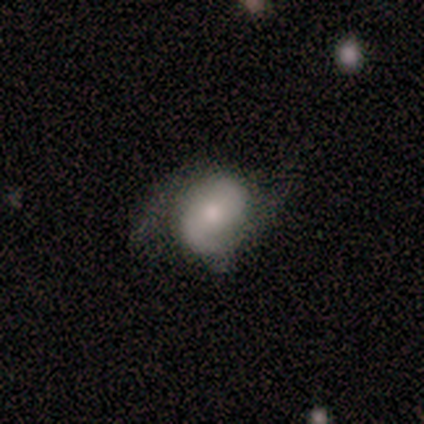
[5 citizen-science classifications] A featured or disk galaxy (60%) with no bar (100%), 2 (67%) tight (33%, tied with medium and loose) spiral arms (100%) and a small central bulge (67%).

Vote fractions:
- Smooth or featured? featured or disk: 60% / smooth: 40% / star or artifact: 0%
- Edge-on disk? no: 100% / yes: 0%
- Bar? no: 100% / strong: 0% / weak: 0%
- Spiral arms? yes: 100% / no: 0%
- Spiral winding? tight: 33% (tied) / medium: 33% (tied) / loose: 33% (tied)
- Spiral arm count? 2: 67% / 1: 33% / 3: 0% / 4: 0% / more than 4: 0% / can't tell: 0%
- Bulge size? small: 67% / large: 33% / dominant: 0% / moderate: 0% / none: 0%
- Merging? none: 60% / minor disturbance: 20% / major disturbance: 20% / merger: 0%